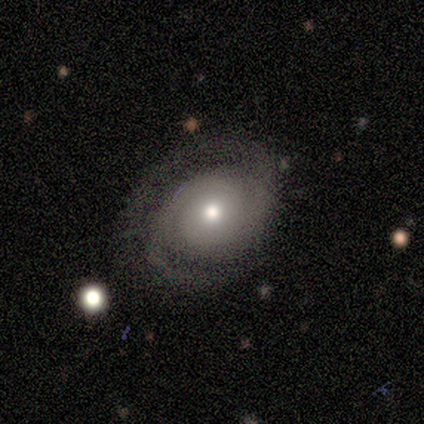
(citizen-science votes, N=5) A featured or disk galaxy (80%) with no bar (100%), 2 (75%) tight (100%) spiral arms (100%) and a small central bulge (75%). Merging: none (100%).